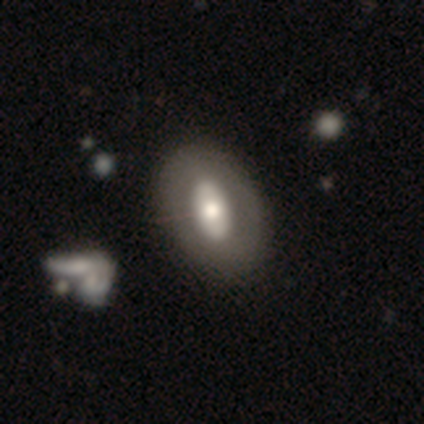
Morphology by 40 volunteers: Smooth or featured?
  - featured or disk: 65% *
  - smooth: 35%
  - star or artifact: 0%
Edge-on disk?
  - no: 92% *
  - yes: 8%
Bar?
  - no: 58% *
  - strong: 29%
  - weak: 12%
Spiral arms?
  - no: 100% *
  - yes: 0%
Bulge size?
  - moderate: 71% *
  - large: 21%
  - dominant: 4%
  - small: 4%
  - none: 0%
Merging?
  - none: 62% *
  - minor disturbance: 8%
  - merger: 5%
  - major disturbance: 0%